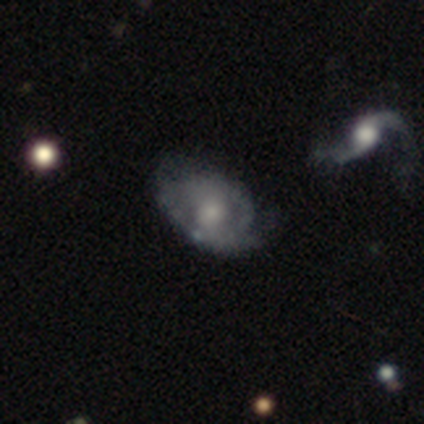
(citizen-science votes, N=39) Overall: featured or disk (74%). Edge-on disk: no (93%). Bar: no (74%). Spiral arms: yes (59%; no 41%). Spiral arm count: can't tell (62%; 2 25%). Spiral winding: loose (44%; tight 31%). Bulge size: small (52%; moderate 37%). Merging: none (54%; minor disturbance 36%).